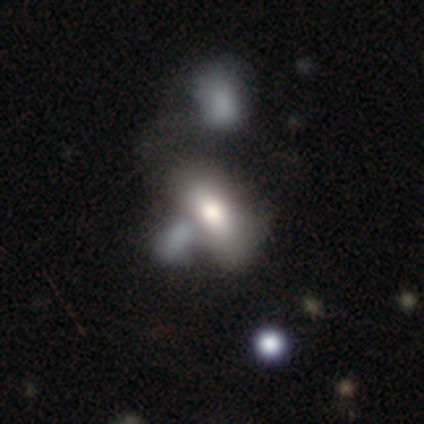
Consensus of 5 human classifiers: smooth-or-featured: featured or disk: 80% | smooth: 20% | star or artifact: 0%
  disk-edge-on: no: 100% | yes: 0%
    bar: no: 100% | strong: 0% | weak: 0%
    has-spiral-arms: no: 100% | yes: 0%
    bulge-size: large: 50% (tied) | moderate: 50% (tied) | dominant: 0% | small: 0% | none: 0%
  merging: merger: 80% | minor disturbance: 20% | none: 0% | major disturbance: 0%